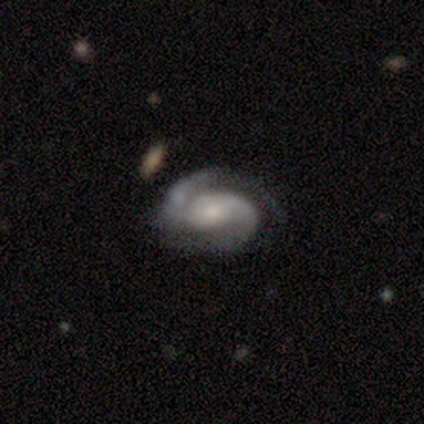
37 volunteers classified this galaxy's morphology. A featured or disk galaxy (97%) with no bar (69%), 2 (89%) tight (51%) spiral arms (100%) and a small central bulge (54%).

Vote fractions:
- Smooth or featured? featured or disk: 97% / smooth: 3% / star or artifact: 0%
- Edge-on disk? no: 97% / yes: 3%
- Bar? no: 69% / weak: 31% / strong: 0%
- Spiral arms? yes: 100% / no: 0%
- Spiral winding? tight: 51% / medium: 40% / loose: 9%
- Spiral arm count? 2: 89% / 1: 6% / 3: 6% / 4: 0% / more than 4: 0% / can't tell: 0%
- Bulge size? small: 54% / moderate: 29% / large: 17% / dominant: 0% / none: 0%
- Merging? none: 59% / minor disturbance: 22% / major disturbance: 16% / merger: 3%